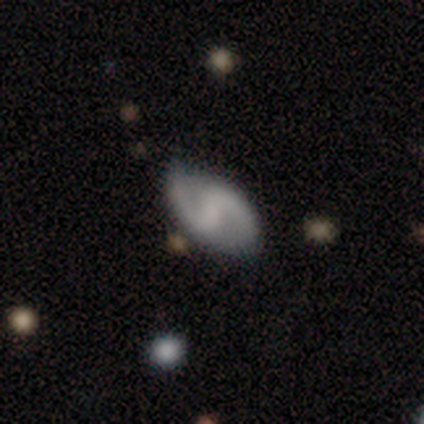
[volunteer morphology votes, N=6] Overall: featured or disk (67%; smooth 33%). Edge-on disk: no (100%). Bar: weak (50%, tied with no). Spiral arms: yes (100%). Spiral arm count: 2 (100%). Spiral winding: medium (50%, tied with loose). Bulge size: small (50%; moderate 25%). Merging: none (67%; minor disturbance 33%).